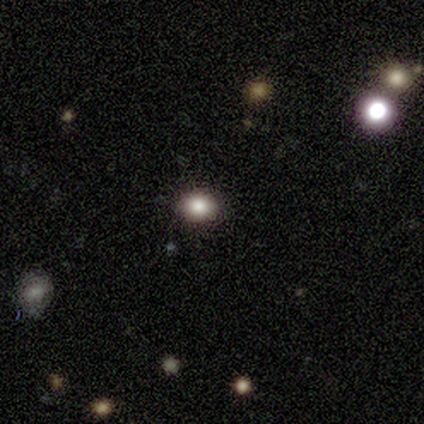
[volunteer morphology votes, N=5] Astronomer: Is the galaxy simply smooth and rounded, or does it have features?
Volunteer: smooth — 80%.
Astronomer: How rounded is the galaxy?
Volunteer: in between — 100%.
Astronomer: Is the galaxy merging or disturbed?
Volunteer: none — 100%.